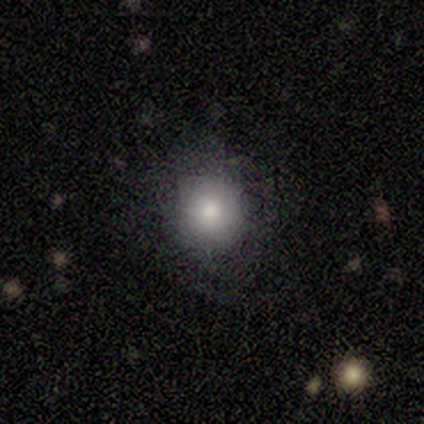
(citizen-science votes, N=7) Volunteers were most divided on "how rounded": round: 86%, in between: 14%, cigar-shaped: 0%. More confident: smooth or featured — smooth (100%); merging — none (86%).